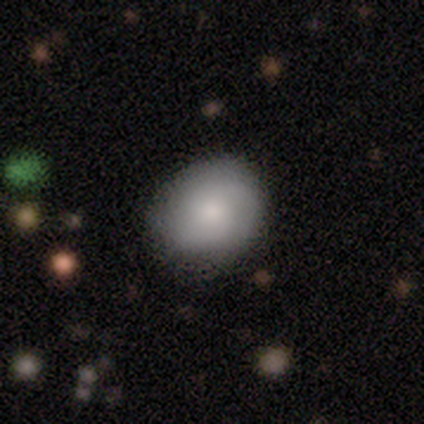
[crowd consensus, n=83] Volunteers were most divided on "how rounded": round: 68%, in between: 31%, cigar-shaped: 2%. More confident: merging — none (78%); smooth or featured — smooth (71%).